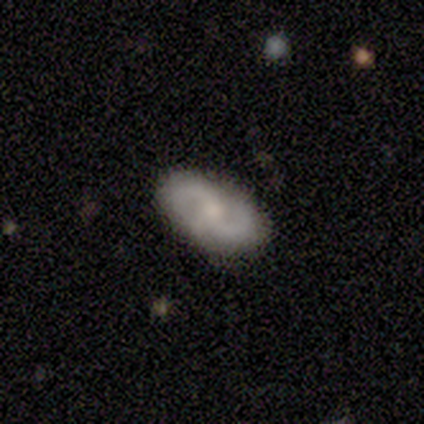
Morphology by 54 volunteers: featured or disk 76%, smooth 20%, star or artifact 4%. Down the decision tree: edge-on disk — no (95%); bar — no (67%); spiral arms — yes (87%); spiral arm count — 2 (97%); spiral winding — medium (47%); bulge size — moderate (46%); merging — none (79%).